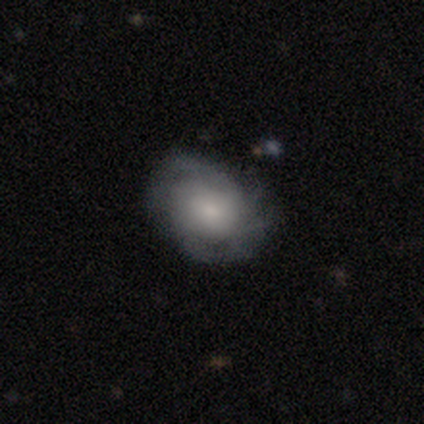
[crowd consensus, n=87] Volunteers were most divided on "spiral winding": tight: 49%, medium: 37%, loose: 15%. Remaining: edge-on disk — no (98%); spiral arms — yes (84%); bar — no (73%); merging — none (64%); smooth or featured — featured or disk (57%); spiral arm count — can't tell (46%); bulge size — small (43%).